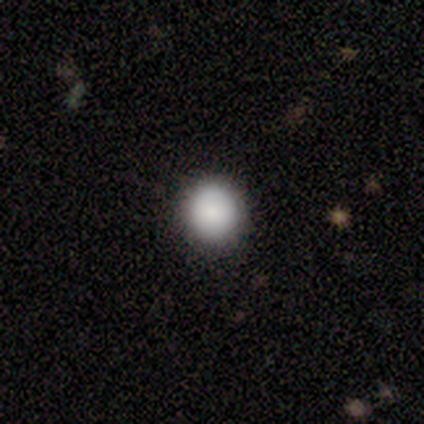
Overall: smooth (92%). How rounded: round (94%). Merging: none (89%).